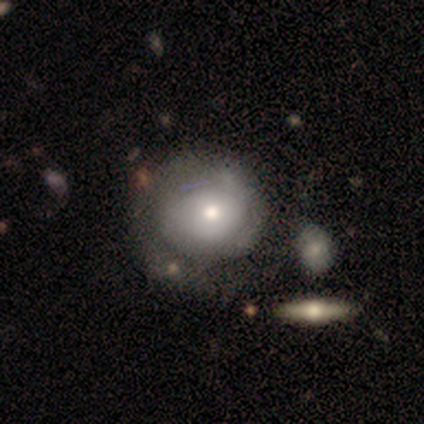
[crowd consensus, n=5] This appears to be a featured or disk galaxy (60%) with no bar (100%), 2 (50%, tied with can't tell) tight (50%, tied with medium) spiral arms (67%) and a small central bulge (67%). Merging: none (80%).